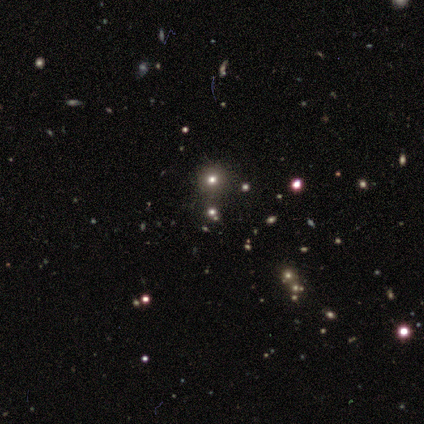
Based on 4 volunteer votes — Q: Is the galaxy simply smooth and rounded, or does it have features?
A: smooth — 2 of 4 (50%).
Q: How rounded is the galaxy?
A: round — 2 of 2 (100%).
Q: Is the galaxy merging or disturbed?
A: none — 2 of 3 (67%).